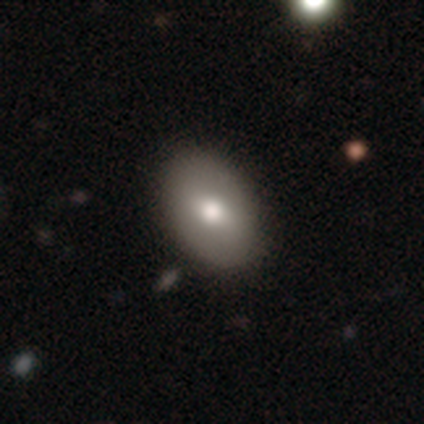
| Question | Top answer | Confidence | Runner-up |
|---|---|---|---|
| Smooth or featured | smooth | 62% | featured or disk (38%) |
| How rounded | in between | 100% | — |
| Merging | none | 77% | minor disturbance (23%) |